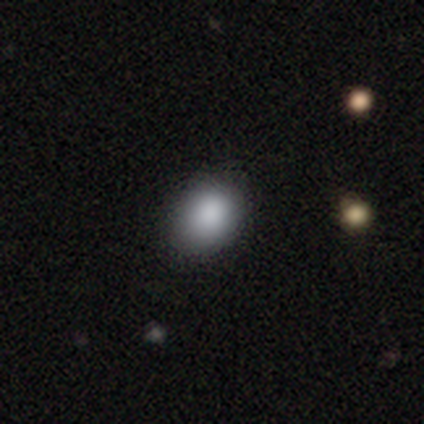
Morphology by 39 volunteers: Smooth or featured? smooth (92%)
How rounded? in between (69%)
Merging? none (54%)